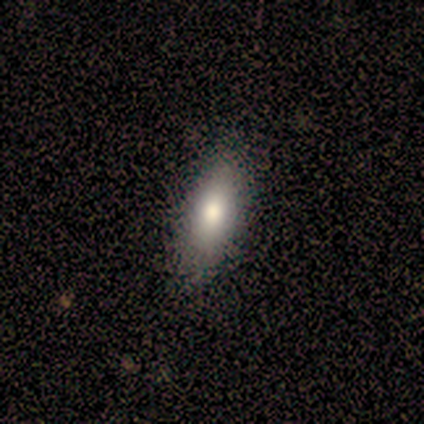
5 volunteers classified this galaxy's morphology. smooth-or-featured: smooth: 80% | featured or disk: 20% | star or artifact: 0%
  how-rounded: in between: 75% | cigar-shaped: 25% | round: 0%
  merging: minor disturbance: 60% | none: 40% | major disturbance: 0% | merger: 0%